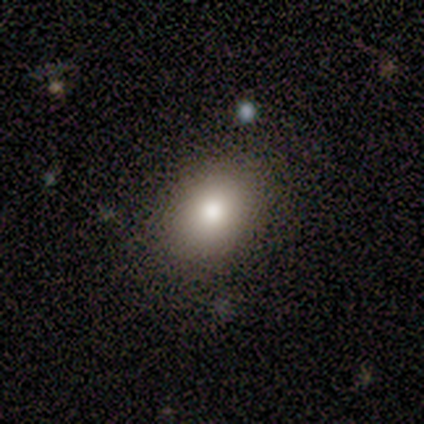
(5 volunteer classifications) Overall: smooth (80%). How rounded: in between (75%). Merging: none (80%).